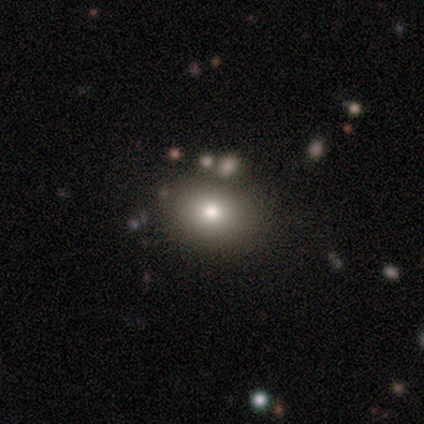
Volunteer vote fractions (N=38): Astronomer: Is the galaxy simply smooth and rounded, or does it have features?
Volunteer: smooth — 79%.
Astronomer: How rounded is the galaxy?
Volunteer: in between — 63%.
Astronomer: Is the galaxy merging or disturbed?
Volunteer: none — 60%.